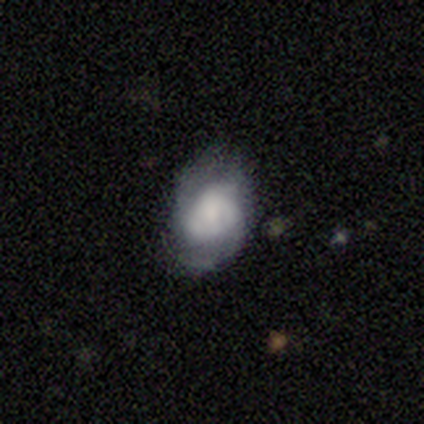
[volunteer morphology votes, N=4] smooth_or_featured: smooth (p=0.50) [tied with: featured or disk p=0.50]
how_rounded: round (p=0.50) [tied with: in between p=0.50]
merging: minor disturbance (p=0.50) [alt: none p=0.25]